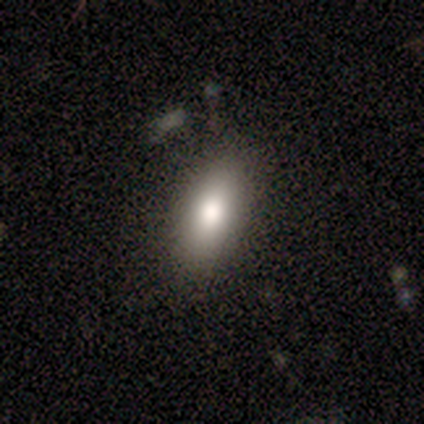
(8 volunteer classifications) smooth-or-featured: smooth: 100% | featured or disk: 0% | star or artifact: 0%
  how-rounded: in between: 88% | round: 12% | cigar-shaped: 0%
  merging: none: 75% | minor disturbance: 25% | major disturbance: 0% | merger: 0%